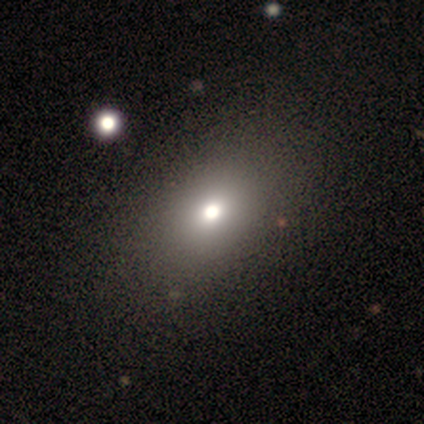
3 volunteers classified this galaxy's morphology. Overall: smooth (100%). How rounded: in between (100%). Merging: none (67%; merger 33%).